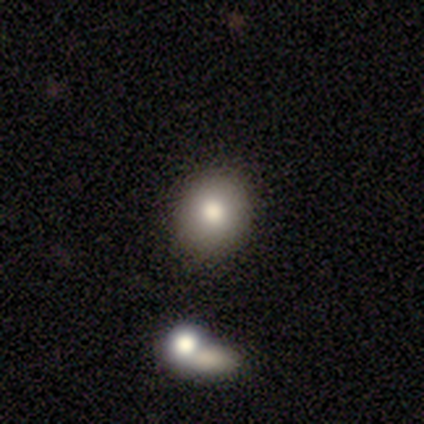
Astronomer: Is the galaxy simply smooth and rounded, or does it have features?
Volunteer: smooth — 80%.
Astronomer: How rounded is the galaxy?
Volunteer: round — 75%.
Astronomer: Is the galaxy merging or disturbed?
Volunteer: none — 100%.